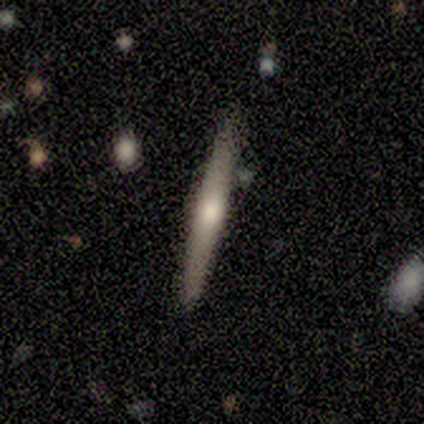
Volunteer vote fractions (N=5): Smooth or featured?
  - smooth: 60% *
  - featured or disk: 40%
  - star or artifact: 0%
How rounded?
  - cigar-shaped: 100% *
  - round: 0%
  - in between: 0%
Merging?
  - none: 100% *
  - minor disturbance: 0%
  - major disturbance: 0%
  - merger: 0%